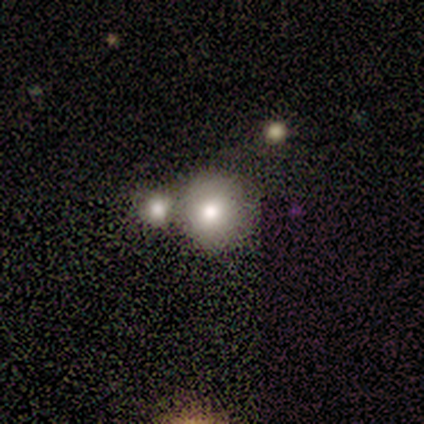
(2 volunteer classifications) Volunteers were most divided on "merging" (2-way tie): none: 50%, merger: 50%, minor disturbance: 0%, major disturbance: 0%. More confident: smooth or featured — smooth (100%); how rounded — round (100%).